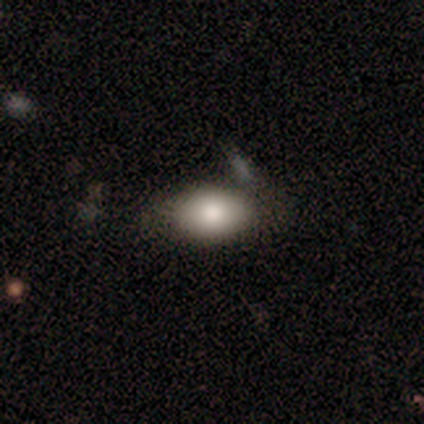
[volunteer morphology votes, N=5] Smooth or featured?
  - smooth: 40% * (tied)
  - star or artifact: 40% * (tied)
  - featured or disk: 20%
How rounded?
  - in between: 100% *
  - round: 0%
  - cigar-shaped: 0%
Merging?
  - minor disturbance: 67% *
  - none: 33%
  - major disturbance: 0%
  - merger: 0%